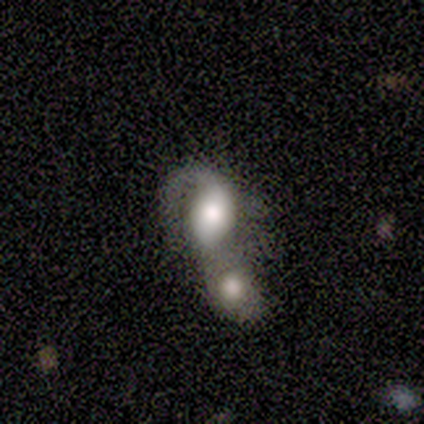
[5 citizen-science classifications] Volunteers were most divided on "smooth or featured": featured or disk: 60%, smooth: 40%, star or artifact: 0%. More confident: edge-on disk — no (100%); spiral arms — yes (100%); merging — merger (100%); bar — no (67%); spiral winding — medium (67%); spiral arm count — 1 (67%); bulge size — moderate (67%).